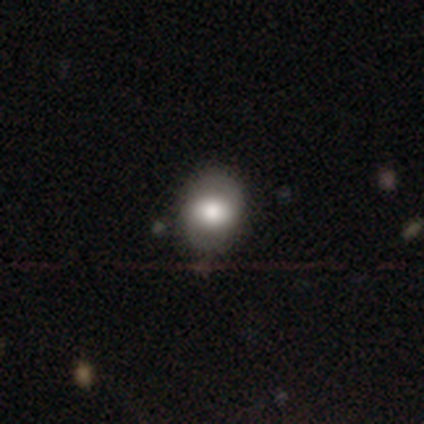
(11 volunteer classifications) Q: Smooth or featured?
A: smooth (73%); runner-up: star or artifact (18%)
Q: How rounded?
A: round (50%); tied with: in between (50%)
Q: Merging?
A: none (78%); runner-up: minor disturbance (22%)